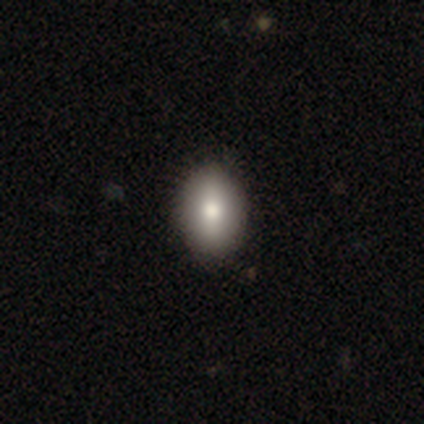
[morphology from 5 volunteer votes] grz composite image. It shows a smooth galaxy with no disk features (100%) that is in between round and cigar-shaped (80%). Merging: none (100%).